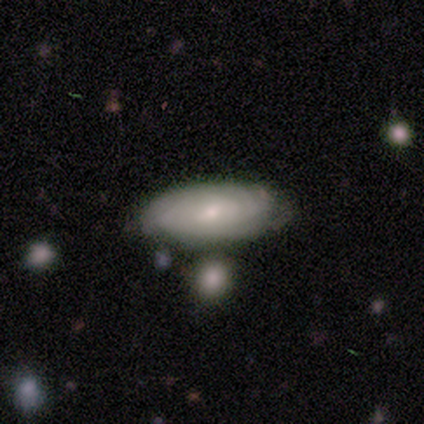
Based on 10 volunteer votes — Smooth or featured: featured or disk — 60% (smooth — 30%)
Edge-on disk: no — 100%
Bar: no — 67% (weak — 33%)
Spiral arms: yes — 100%
Spiral winding: tight — 100%
Spiral arm count: can't tell — 50% (2 — 33%)
Bulge size: small — 67% (large — 17%)
Merging: none — 78% (minor disturbance — 11%)